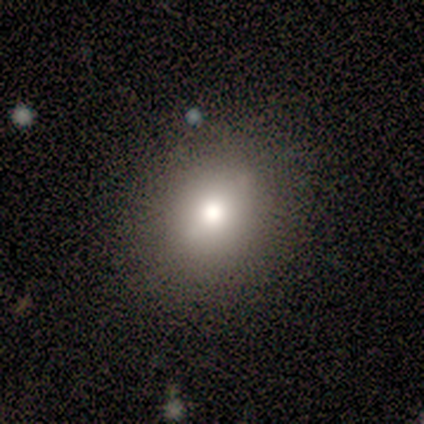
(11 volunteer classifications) Smooth or featured? smooth (73%)
How rounded? in between (75%)
Merging? none (89%)